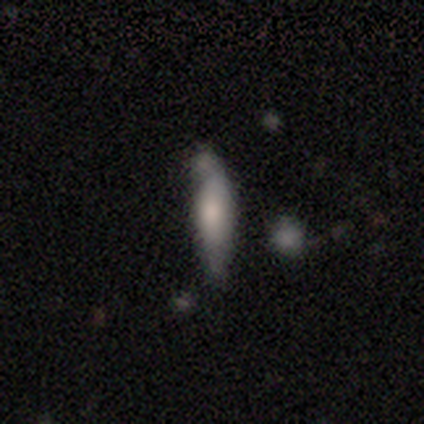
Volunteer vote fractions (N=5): Smooth or featured?
  - smooth: 80% *
  - featured or disk: 20%
  - star or artifact: 0%
How rounded?
  - cigar-shaped: 75% *
  - in between: 25%
  - round: 0%
Merging?
  - none: 40% *
  - minor disturbance: 20%
  - major disturbance: 20%
  - merger: 20%